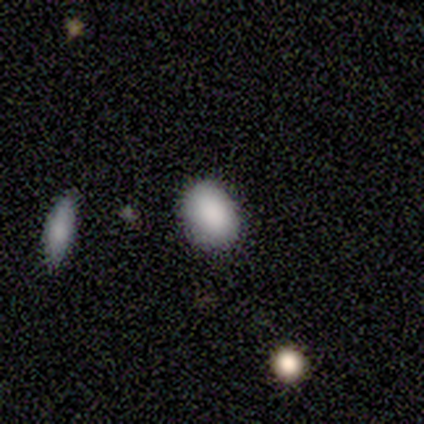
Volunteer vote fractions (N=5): smooth 80%, star or artifact 20%, featured or disk 0%. Down the decision tree: how rounded — in between (75%); merging — none (100%).